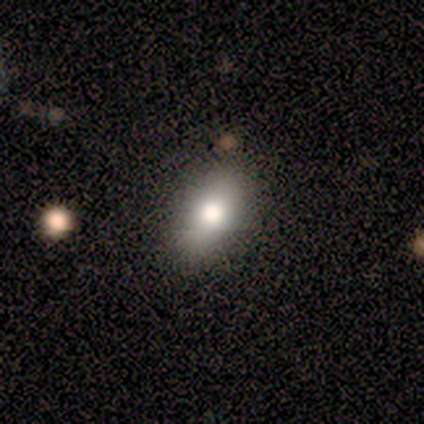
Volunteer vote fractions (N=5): A smooth galaxy with no disk features (60%) that is in between round and cigar-shaped (100%). Merging: none (67%).